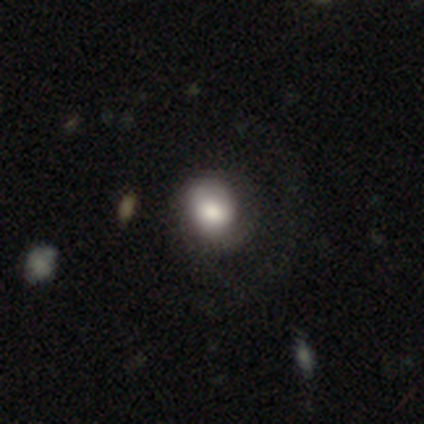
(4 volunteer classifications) Q: Smooth or featured?
A: smooth (50%); tied with: featured or disk (50%)
Q: How rounded?
A: round (50%); tied with: in between (50%)
Q: Merging?
A: minor disturbance (50%); runner-up: none (25%)